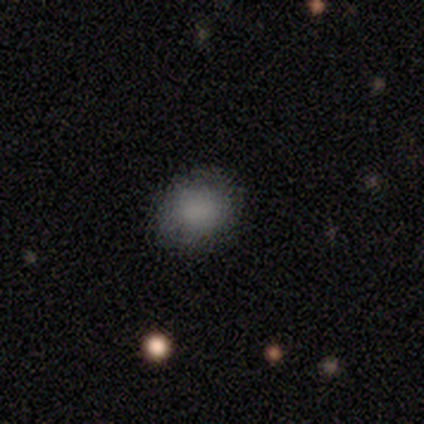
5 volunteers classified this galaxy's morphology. Smooth or featured? smooth (80%)
How rounded? round (100%)
Merging? none (100%)